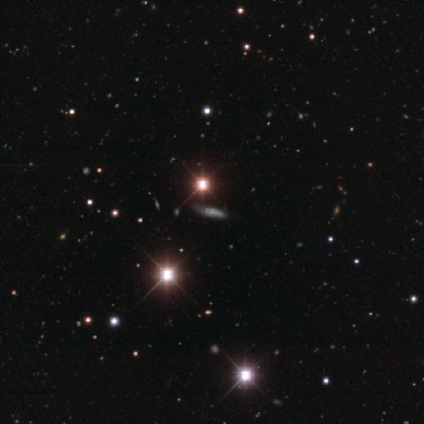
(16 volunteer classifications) Smooth or featured? star or artifact (56%)